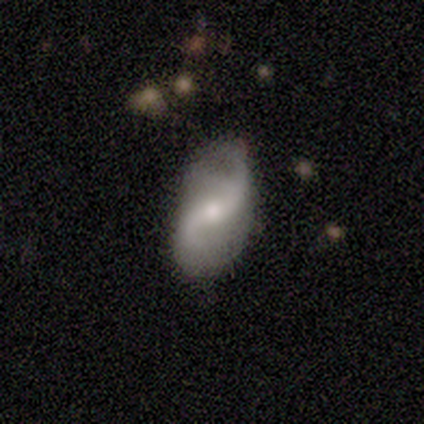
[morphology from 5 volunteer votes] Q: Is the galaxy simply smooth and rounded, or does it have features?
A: featured or disk — 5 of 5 (100%).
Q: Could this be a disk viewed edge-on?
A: no — 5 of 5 (100%).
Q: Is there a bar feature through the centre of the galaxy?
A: no — 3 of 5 (60%).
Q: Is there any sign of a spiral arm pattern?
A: yes — 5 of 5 (100%).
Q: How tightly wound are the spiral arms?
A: loose — 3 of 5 (60%).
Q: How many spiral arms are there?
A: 2 — 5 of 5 (100%).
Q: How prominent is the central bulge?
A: small — 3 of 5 (60%).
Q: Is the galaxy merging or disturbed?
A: none — 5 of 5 (100%).